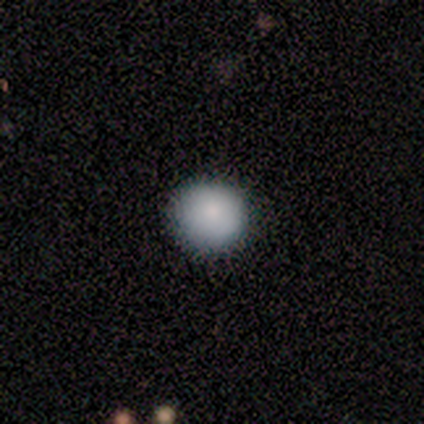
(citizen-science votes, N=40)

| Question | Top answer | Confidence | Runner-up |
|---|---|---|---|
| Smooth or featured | smooth | 82% | star or artifact (15%) |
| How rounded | round | 94% | in between (6%) |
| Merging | none | 94% | minor disturbance (6%) |